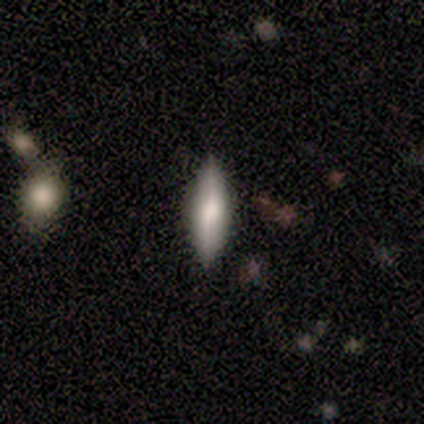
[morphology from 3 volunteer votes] Q: Smooth or featured?
A: smooth (67%); runner-up: featured or disk (33%)
Q: How rounded?
A: in between (50%); tied with: cigar-shaped (50%)
Q: Merging?
A: none (67%); runner-up: minor disturbance (33%)